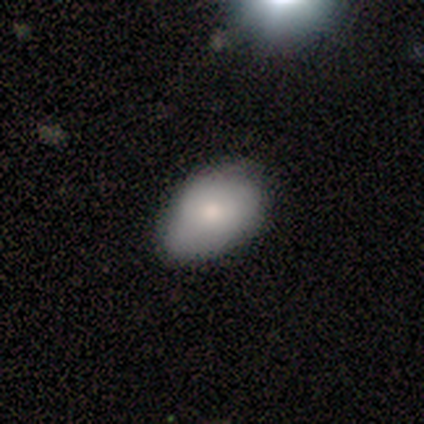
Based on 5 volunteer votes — This appears to be a smooth galaxy with no disk features (80%) that is in between round and cigar-shaped (100%). Merging: none (100%).